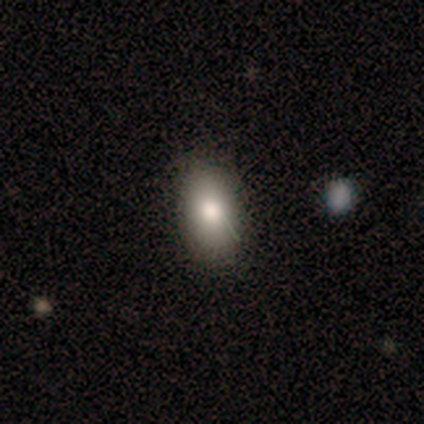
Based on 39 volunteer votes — Morphology: type=smooth (87%); roundness=in between (91%); merging=none (51%).